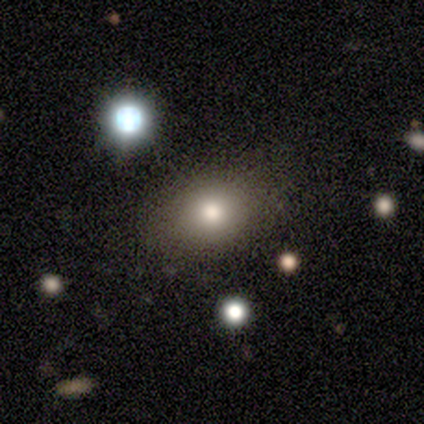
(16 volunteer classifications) smooth_or_featured: smooth (p=0.75) [alt: featured or disk p=0.12]
how_rounded: in between (p=0.58) [alt: round p=0.42]
merging: none (p=0.71) [alt: minor disturbance p=0.21]